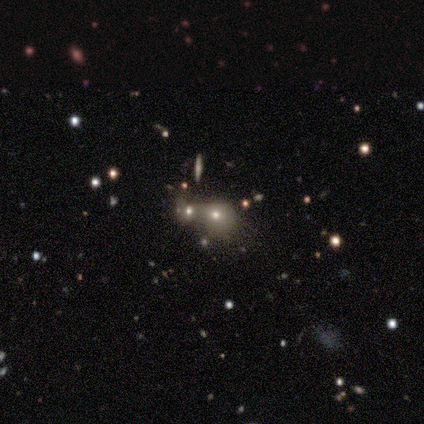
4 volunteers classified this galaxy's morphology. Overall: smooth (50%, tied with star or artifact). How rounded: round (50%, tied with in between). Merging: merger (100%).